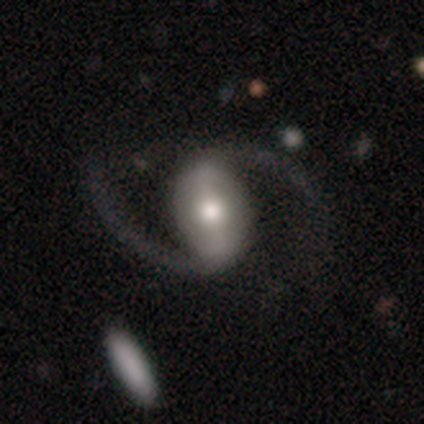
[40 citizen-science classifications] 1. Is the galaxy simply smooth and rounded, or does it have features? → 90% featured or disk, 8% smooth, 2% star or artifact.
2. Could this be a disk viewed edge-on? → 97% no, 3% yes.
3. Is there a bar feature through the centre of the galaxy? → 54% strong, 29% weak, 17% no.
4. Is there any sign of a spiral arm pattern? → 100% yes, 0% no.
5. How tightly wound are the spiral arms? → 80% loose, 20% medium, 0% tight.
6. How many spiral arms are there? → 100% 2, 0% 1, 0% 3, 0% 4, 0% more than 4, 0% can't tell.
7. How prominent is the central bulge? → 54% moderate, 29% large, 17% small, 0% dominant, 0% none.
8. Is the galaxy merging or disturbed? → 62% none, 18% minor disturbance, 18% major disturbance, 3% merger.